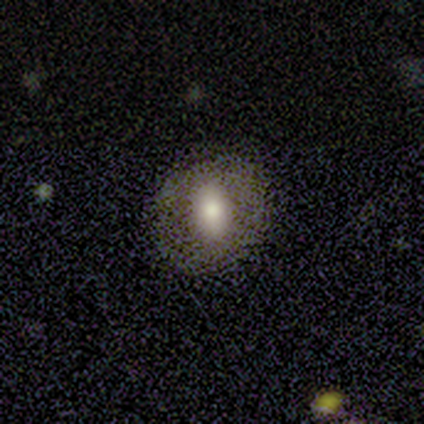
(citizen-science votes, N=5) Q: Smooth or featured?
A: smooth (40%); tied with: featured or disk (40%)
Q: How rounded?
A: round (50%); tied with: in between (50%)
Q: Merging?
A: none (100%)